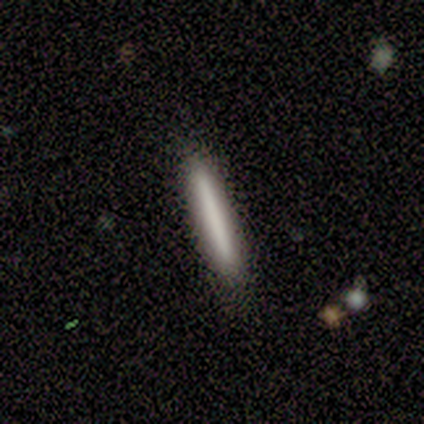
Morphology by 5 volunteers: Overall: smooth (80%). How rounded: cigar-shaped (100%). Merging: none (100%).